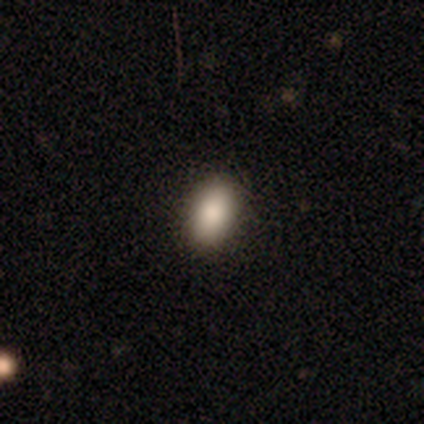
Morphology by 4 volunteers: A smooth galaxy with no disk features (100%) that is in between round and cigar-shaped (100%).

Vote fractions:
- Smooth or featured? smooth: 100% / featured or disk: 0% / star or artifact: 0%
- How rounded? in between: 100% / round: 0% / cigar-shaped: 0%
- Merging? none: 100% / minor disturbance: 0% / major disturbance: 0% / merger: 0%